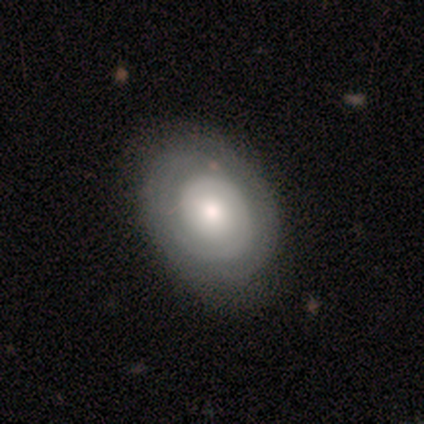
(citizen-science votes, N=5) This is likely a featured or disk galaxy (60%). It is clearly not viewed edge-on (100%). Bar: clearly no (100%). Spiral arm pattern: clearly yes (100%). Spiral arm count: likely 1 (67%). Spiral winding: clearly tight (100%). Central bulge: clearly moderate (100%). Merging: clearly none (80%).